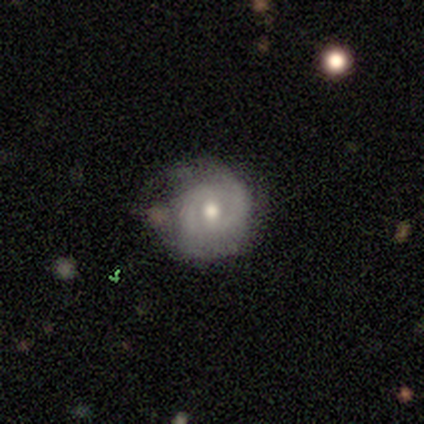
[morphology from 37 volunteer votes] smooth_or_featured: featured or disk (p=0.65) [alt: smooth p=0.24]
disk_edge_on: no (p=0.96) [alt: yes p=0.04]
bar: no (p=0.52) [alt: weak p=0.48]
has_spiral_arms: yes (p=0.74) [alt: no p=0.26]
spiral_winding: tight (p=0.59) [alt: medium p=0.29]
spiral_arm_count: 2 (p=0.88) [alt: can't tell p=0.12]
bulge_size: moderate (p=0.57) [alt: small p=0.39]
merging: none (p=0.52) [alt: minor disturbance p=0.39]